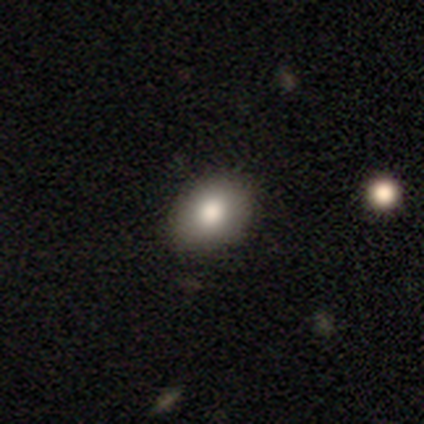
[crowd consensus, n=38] Smooth or featured? 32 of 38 (84%) said smooth. How rounded? 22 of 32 (69%) said in between. Merging? 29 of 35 (83%) said none.